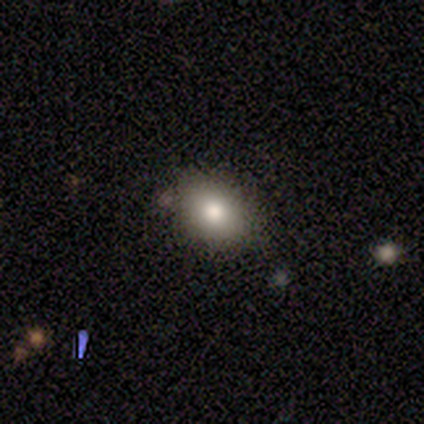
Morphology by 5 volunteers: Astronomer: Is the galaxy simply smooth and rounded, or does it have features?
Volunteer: smooth — 80%.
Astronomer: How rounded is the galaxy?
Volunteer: round — 50%, tied with in between at 50%.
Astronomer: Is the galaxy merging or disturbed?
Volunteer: none — 100%.